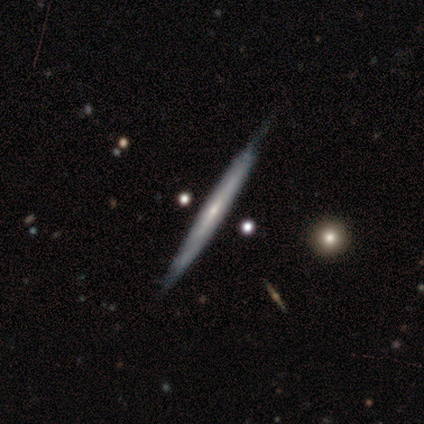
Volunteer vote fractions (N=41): This appears to be a featured or disk galaxy (93%) viewed edge-on (97%) with no central bulge (62%). Merging: none (68%).